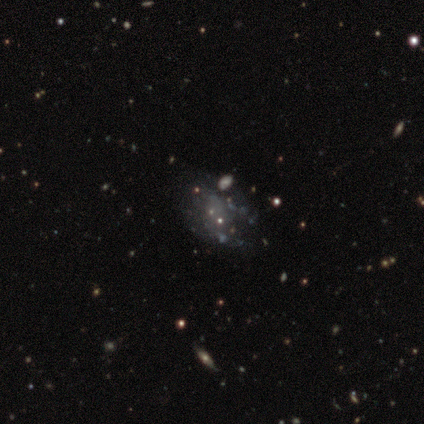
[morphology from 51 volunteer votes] Smooth or featured? 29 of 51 (57%) said featured or disk. Edge-on disk? 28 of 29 (97%) said no. Bar? 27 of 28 (96%) said no. Spiral arms? 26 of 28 (93%) said no. Bulge size? 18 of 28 (64%) said none. Merging? 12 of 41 (29%, tied with minor disturbance) said none.